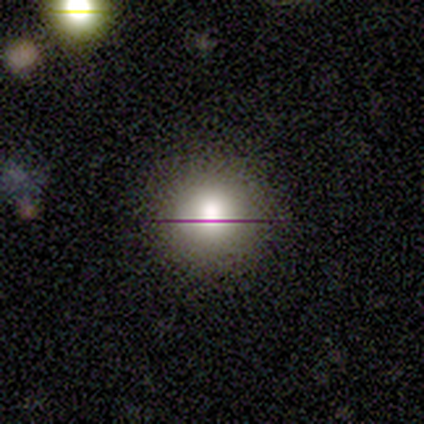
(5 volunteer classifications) Smooth or featured?
  - smooth: 60% *
  - featured or disk: 40%
  - star or artifact: 0%
How rounded?
  - round: 100% *
  - in between: 0%
  - cigar-shaped: 0%
Merging?
  - none: 80% *
  - minor disturbance: 20%
  - major disturbance: 0%
  - merger: 0%